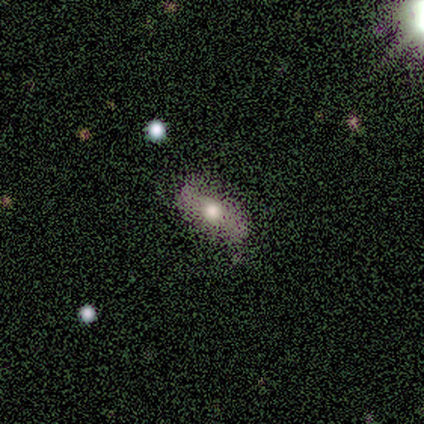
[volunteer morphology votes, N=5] A featured or disk galaxy (60%) with no bar (100%), no spiral arms (67%) and a moderate central bulge (67%).

Vote fractions:
- Smooth or featured? featured or disk: 60% / smooth: 40% / star or artifact: 0%
- Edge-on disk? no: 100% / yes: 0%
- Bar? no: 100% / strong: 0% / weak: 0%
- Spiral arms? no: 67% / yes: 33%
- Bulge size? moderate: 67% / large: 33% / dominant: 0% / small: 0% / none: 0%
- Merging? none: 100% / minor disturbance: 0% / major disturbance: 0% / merger: 0%